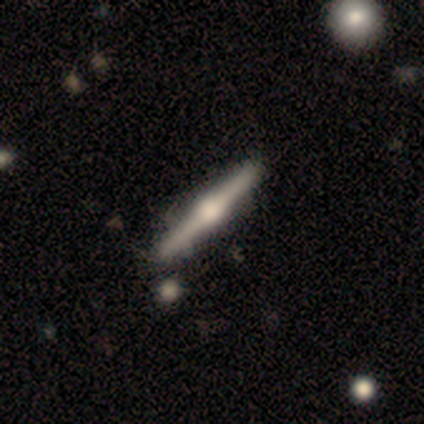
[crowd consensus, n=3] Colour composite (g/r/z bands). It shows a featured or disk galaxy (100%) viewed edge-on (100%) with a rounded central bulge (100%). Merging: none (67%).